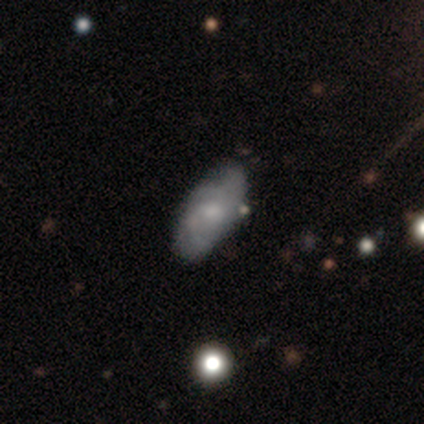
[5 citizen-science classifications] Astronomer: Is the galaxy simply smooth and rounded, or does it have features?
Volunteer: featured or disk — 80%.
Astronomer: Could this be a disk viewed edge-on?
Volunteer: no — 100%.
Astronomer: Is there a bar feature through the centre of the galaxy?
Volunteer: no — 75%.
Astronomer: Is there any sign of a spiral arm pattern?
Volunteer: yes — 100%.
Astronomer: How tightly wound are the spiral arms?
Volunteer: medium — 50%.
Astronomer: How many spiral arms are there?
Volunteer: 2 — 75%.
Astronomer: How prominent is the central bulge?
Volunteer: moderate — 50%.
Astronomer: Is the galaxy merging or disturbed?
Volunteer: none — 80%.